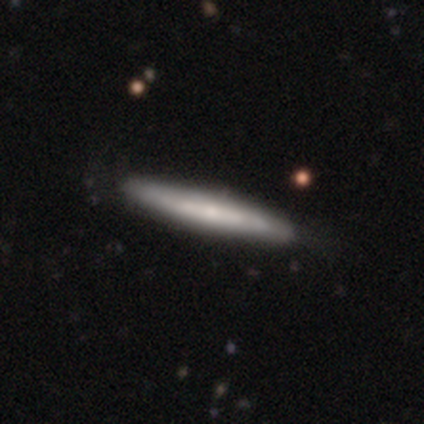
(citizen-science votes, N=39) smooth-or-featured: featured or disk: 54% | smooth: 41% | star or artifact: 5%
  disk-edge-on: yes: 81% | no: 19%
    edge-on-bulge: none: 65% | rounded: 35% | boxy: 0%
  merging: none: 51% | minor disturbance: 8% | merger: 3% | major disturbance: 0%